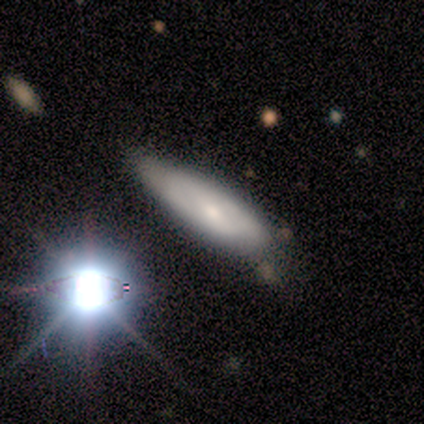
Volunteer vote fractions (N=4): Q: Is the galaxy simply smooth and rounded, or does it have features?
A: smooth — 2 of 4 (50%, tied with featured or disk).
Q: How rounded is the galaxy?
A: in between — 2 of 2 (100%).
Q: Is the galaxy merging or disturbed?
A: none — 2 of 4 (50%).